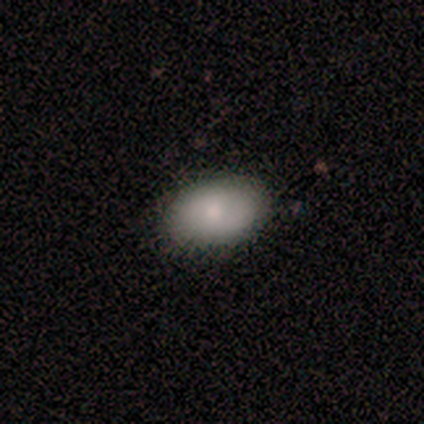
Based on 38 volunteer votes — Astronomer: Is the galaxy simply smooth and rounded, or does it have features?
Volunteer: smooth — 79%.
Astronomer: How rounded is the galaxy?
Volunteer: in between — 90%.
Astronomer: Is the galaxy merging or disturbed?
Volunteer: none — 85%.